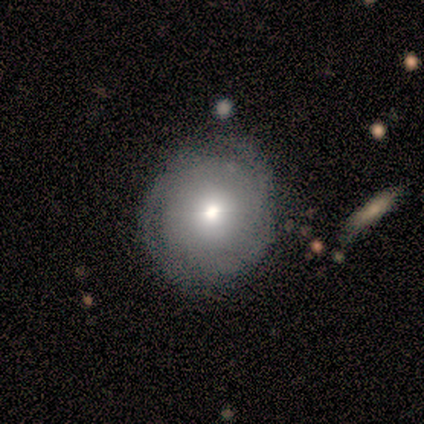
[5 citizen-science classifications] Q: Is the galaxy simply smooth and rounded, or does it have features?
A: smooth — 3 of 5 (60%).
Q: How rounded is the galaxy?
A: round — 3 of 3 (100%).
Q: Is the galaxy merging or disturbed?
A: none — 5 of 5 (100%).